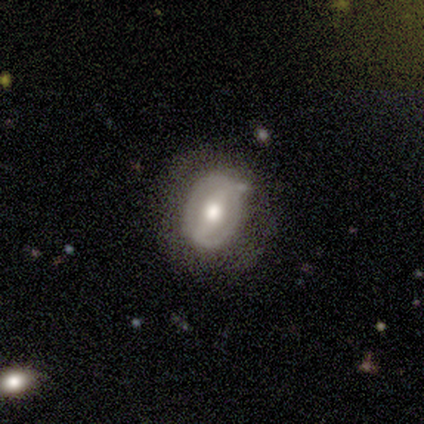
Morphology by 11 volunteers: Smooth or featured?
  - featured or disk: 73% *
  - smooth: 27%
  - star or artifact: 0%
Edge-on disk?
  - no: 100% *
  - yes: 0%
Bar?
  - strong: 62% *
  - weak: 25%
  - no: 12%
Spiral arms?
  - no: 62% *
  - yes: 38%
Bulge size?
  - moderate: 100% *
  - dominant: 0%
  - large: 0%
  - small: 0%
  - none: 0%
Merging?
  - none: 73% *
  - minor disturbance: 27%
  - major disturbance: 0%
  - merger: 0%